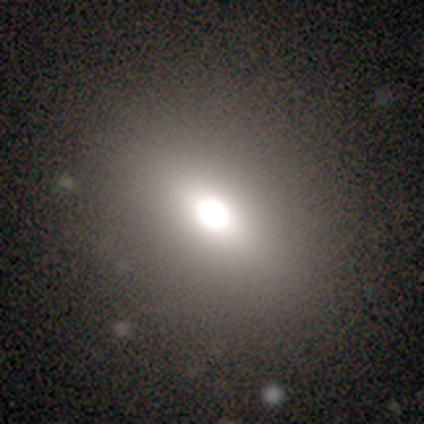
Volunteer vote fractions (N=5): Smooth or featured? smooth (80%)
How rounded? in between (75%)
Merging? none (100%)